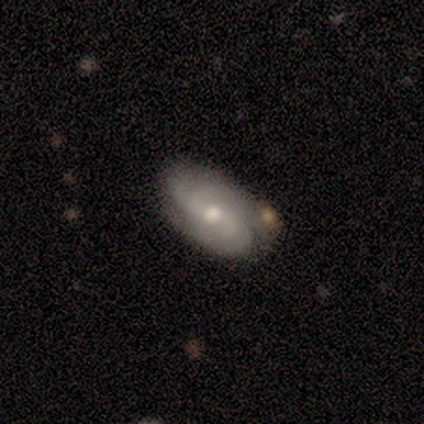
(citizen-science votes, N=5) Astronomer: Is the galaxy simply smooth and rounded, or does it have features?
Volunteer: featured or disk — 60% (runner-up: smooth, 40%).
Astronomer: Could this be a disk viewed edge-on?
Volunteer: no — 100%.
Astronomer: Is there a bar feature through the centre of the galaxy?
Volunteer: weak — 67%.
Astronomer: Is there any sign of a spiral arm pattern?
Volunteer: yes — 100%.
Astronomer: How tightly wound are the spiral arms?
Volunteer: medium — 100%.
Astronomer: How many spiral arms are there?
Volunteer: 4 — 100%.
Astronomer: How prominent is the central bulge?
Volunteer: moderate — 100%.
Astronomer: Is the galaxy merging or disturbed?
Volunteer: none — 80%.